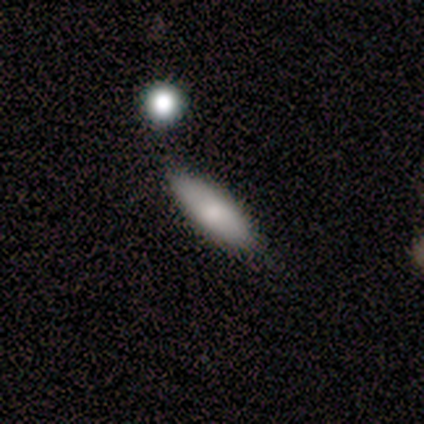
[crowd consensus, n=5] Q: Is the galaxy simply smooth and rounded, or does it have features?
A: smooth — 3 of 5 (60%).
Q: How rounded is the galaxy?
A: in between — 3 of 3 (100%).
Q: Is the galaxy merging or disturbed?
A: none — 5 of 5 (100%).